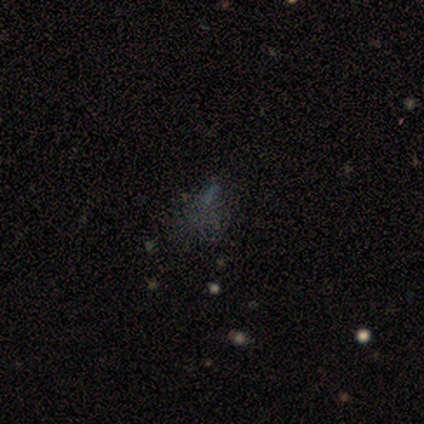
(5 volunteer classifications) This is likely a star or artifact rather than a galaxy (60%).